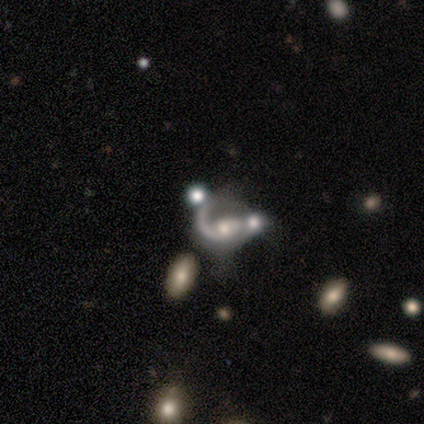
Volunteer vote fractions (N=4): Volunteers were most divided on "bulge size" (2-way tie): moderate: 50%, small: 50%, dominant: 0%, large: 0%, none: 0%. More confident: smooth or featured — featured or disk (100%); edge-on disk — no (100%); bar — no (100%); spiral arms — yes (100%); spiral arm count — 1 (100%); spiral winding — medium (75%); merging — none (50%).